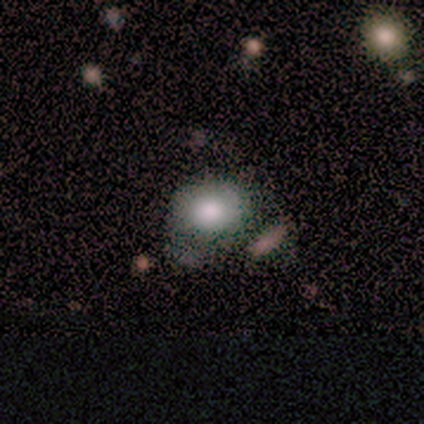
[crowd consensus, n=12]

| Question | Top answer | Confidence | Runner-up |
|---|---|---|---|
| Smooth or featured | smooth | 58% | star or artifact (25%) |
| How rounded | in between | 71% | round (29%) |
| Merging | none | 67% | merger (22%) |